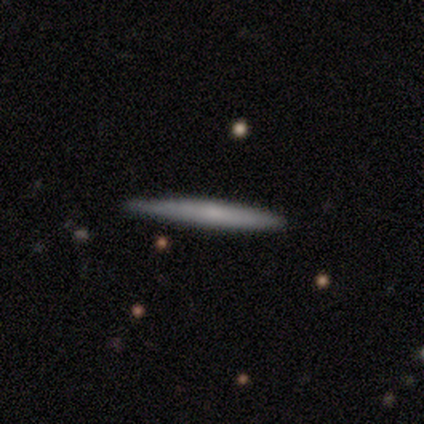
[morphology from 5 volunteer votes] A smooth galaxy with no disk features (80%) that is cigar-shaped (100%). Merging: none (60%).